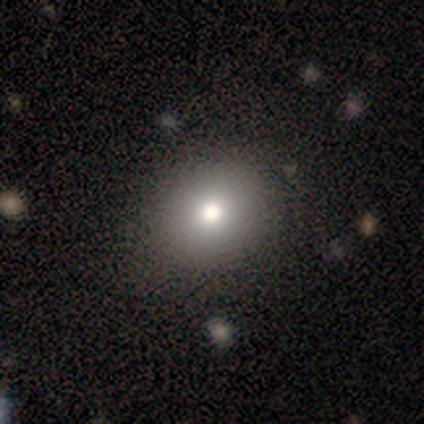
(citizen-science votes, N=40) Smooth or featured: smooth — 72% (featured or disk — 15%)
How rounded: round — 59% (in between — 41%)
Merging: none — 74% (minor disturbance — 6%)